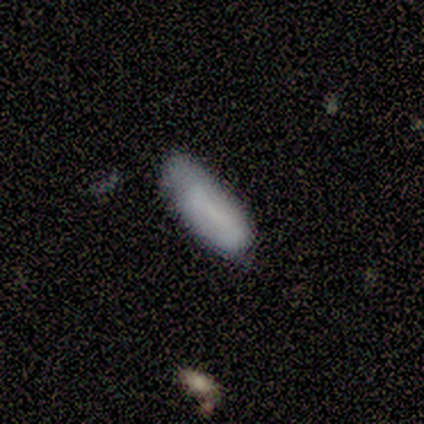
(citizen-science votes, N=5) Smooth or featured: featured or disk — 60% (smooth — 40%)
Edge-on disk: yes — 67% (no — 33%)
Edge-on bulge: none — 100%
Merging: minor disturbance — 60% (none — 40%)